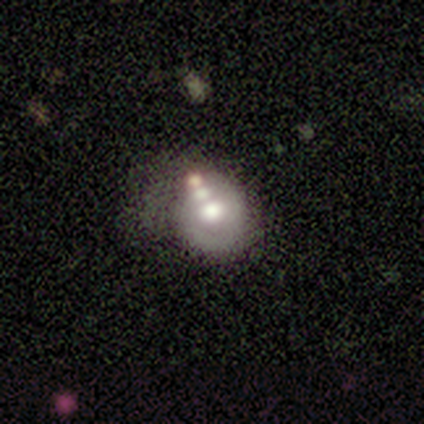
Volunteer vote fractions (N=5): Smooth or featured? featured or disk (80%)
Edge-on disk? no (100%)
Bar? no (100%)
Spiral arms? no (75%)
Bulge size? moderate (75%)
Merging? minor disturbance (40%, tied with merger)